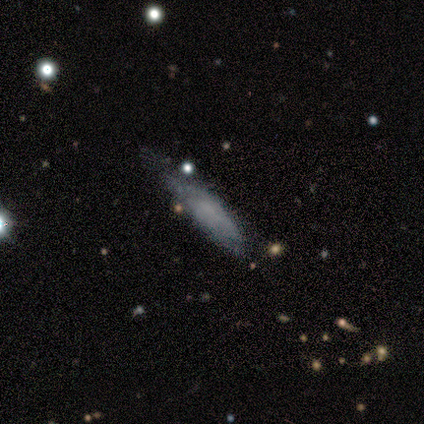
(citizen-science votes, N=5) This is clearly a smooth galaxy (100%). How rounded: clearly cigar-shaped (80%). Merging: likely none (60%).